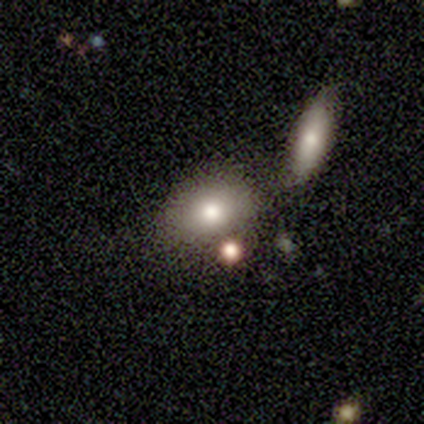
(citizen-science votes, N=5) This is marginally a featured or disk galaxy (40%, tied with star or artifact). It is clearly not viewed edge-on (100%). Bar: clearly no (100%). Spiral arm pattern: clearly no (100%). Central bulge: possibly large (50%, tied with moderate). Merging: likely none (67%).